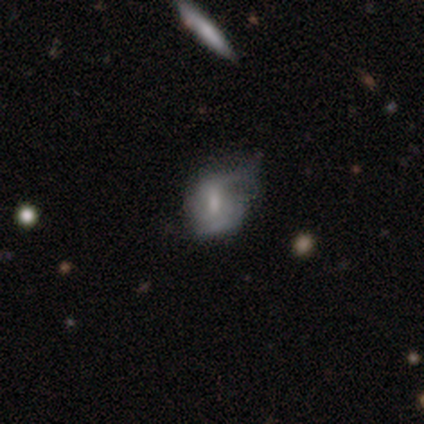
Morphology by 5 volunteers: This appears to be a smooth galaxy with no disk features (60%) that is round (33%, tied with in between and cigar-shaped). Merging: minor disturbance (60%).